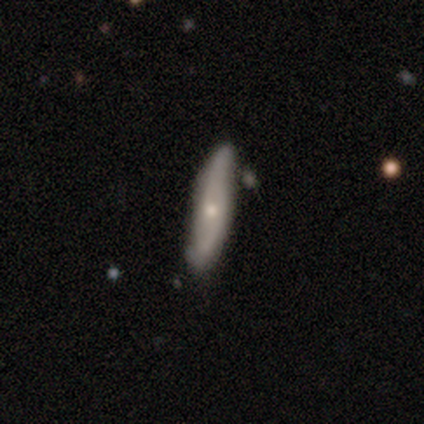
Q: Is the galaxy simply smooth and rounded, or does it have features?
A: smooth — 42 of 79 (53%).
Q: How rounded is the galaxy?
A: cigar-shaped — 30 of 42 (71%).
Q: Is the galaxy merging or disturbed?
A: none — 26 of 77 (34%).